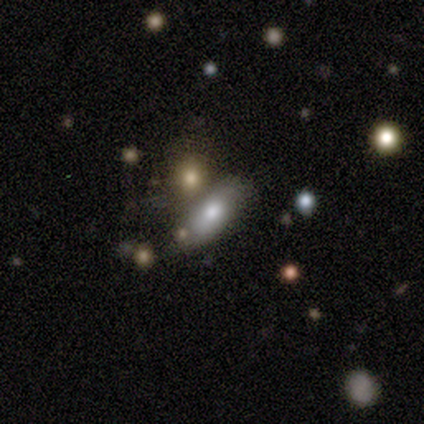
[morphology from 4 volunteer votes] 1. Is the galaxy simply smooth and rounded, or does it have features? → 50% smooth, 25% featured or disk, 25% star or artifact.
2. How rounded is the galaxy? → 100% in between, 0% round, 0% cigar-shaped.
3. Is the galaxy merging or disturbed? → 67% none, 33% merger, 0% minor disturbance, 0% major disturbance.